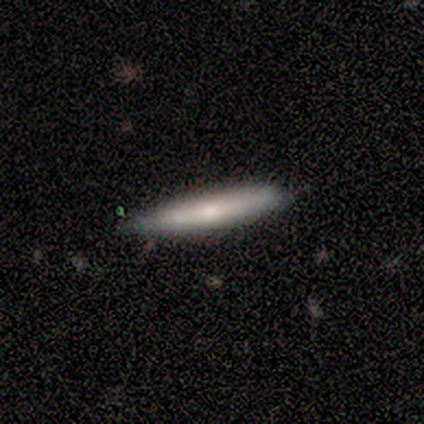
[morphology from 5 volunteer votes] smooth_or_featured: smooth (p=1.00)
how_rounded: cigar-shaped (p=1.00)
merging: none (p=1.00)